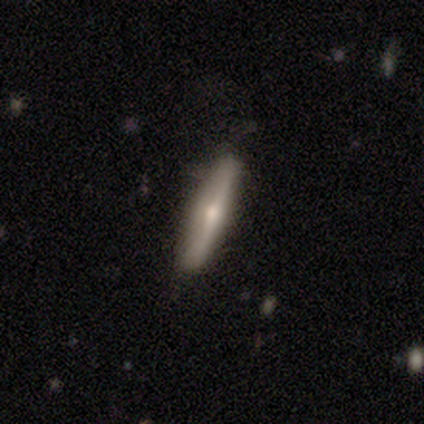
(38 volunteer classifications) Volunteers were most divided on "smooth or featured": featured or disk: 61%, smooth: 37%, star or artifact: 3%. More confident: edge-on disk — yes (91%); edge-on bulge — rounded (90%); merging — none (86%).